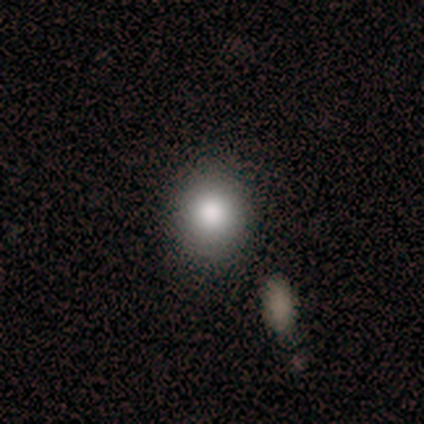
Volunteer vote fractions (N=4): Overall: smooth (75%). How rounded: round (100%). Merging: none (100%).